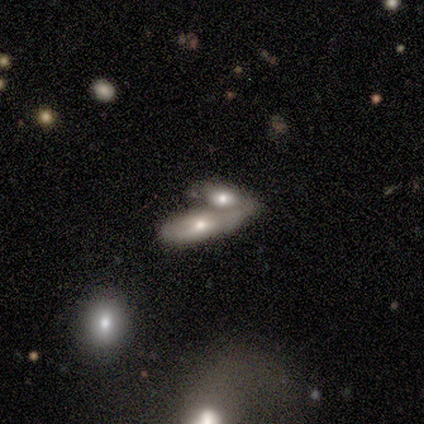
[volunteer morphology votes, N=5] Smooth or featured?
  - smooth: 60% *
  - featured or disk: 40%
  - star or artifact: 0%
How rounded?
  - in between: 100% *
  - round: 0%
  - cigar-shaped: 0%
Merging?
  - merger: 60% *
  - minor disturbance: 40%
  - none: 0%
  - major disturbance: 0%